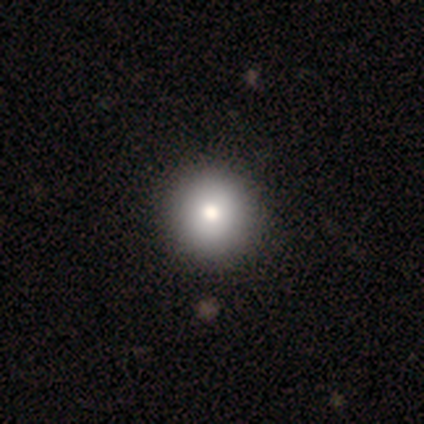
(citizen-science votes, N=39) Q: Smooth or featured?
A: smooth (82%); runner-up: star or artifact (10%)
Q: How rounded?
A: round (100%)
Q: Merging?
A: none (57%); runner-up: merger (3%)